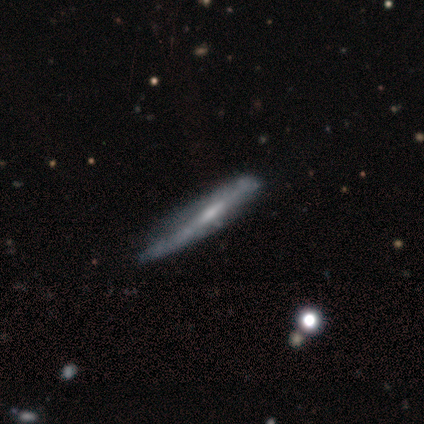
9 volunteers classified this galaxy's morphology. Smooth or featured?
  - featured or disk: 56% *
  - smooth: 44%
  - star or artifact: 0%
Edge-on disk?
  - yes: 100% *
  - no: 0%
Edge-on bulge?
  - none: 60% *
  - boxy: 20%
  - rounded: 20%
Merging?
  - minor disturbance: 78% *
  - none: 22%
  - major disturbance: 0%
  - merger: 0%